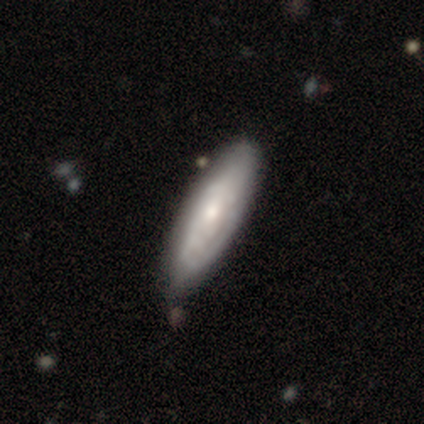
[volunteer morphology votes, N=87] Q: Smooth or featured?
A: smooth (46%); runner-up: featured or disk (45%)
Q: How rounded?
A: in between (50%); tied with: cigar-shaped (50%)
Q: Merging?
A: none (77%); runner-up: minor disturbance (20%)